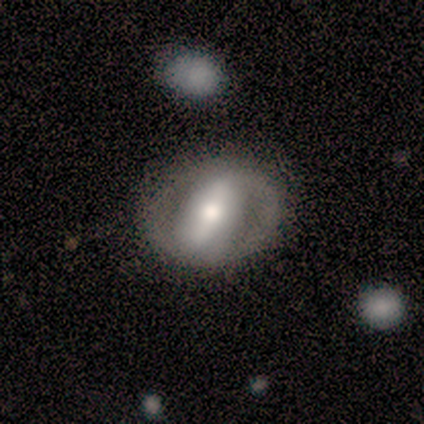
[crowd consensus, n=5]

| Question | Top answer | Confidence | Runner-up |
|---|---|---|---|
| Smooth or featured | featured or disk | 100% | — |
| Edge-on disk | no | 100% | — |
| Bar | strong | 80% | no (20%) |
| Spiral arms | yes | 60% | no (40%) |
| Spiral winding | loose | 67% | medium (33%) |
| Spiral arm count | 2 | 67% | can't tell (33%) |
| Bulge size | moderate | 80% | large (20%) |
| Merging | none | 100% | — |